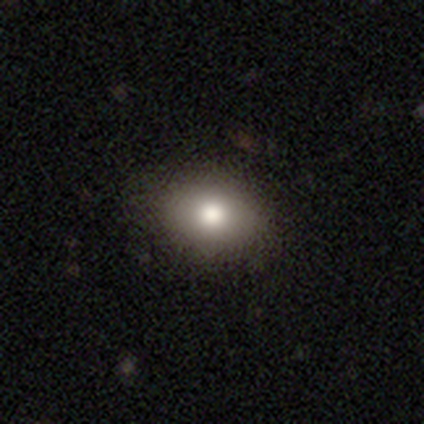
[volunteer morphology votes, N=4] smooth-or-featured: smooth: 100% | featured or disk: 0% | star or artifact: 0%
  how-rounded: in between: 75% | round: 25% | cigar-shaped: 0%
  merging: none: 100% | minor disturbance: 0% | major disturbance: 0% | merger: 0%